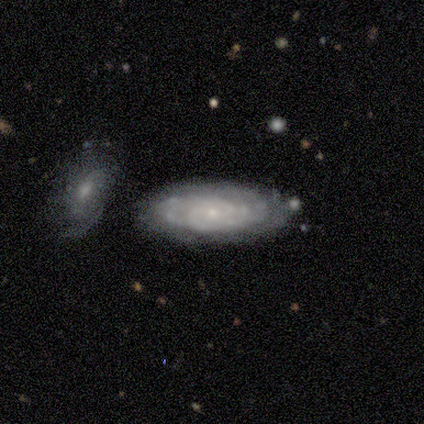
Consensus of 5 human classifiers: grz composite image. It shows a featured or disk galaxy (100%) with no bar (75%), tight (75%) spiral arms (100%) and a small central bulge (75%). Merging: none (60%).